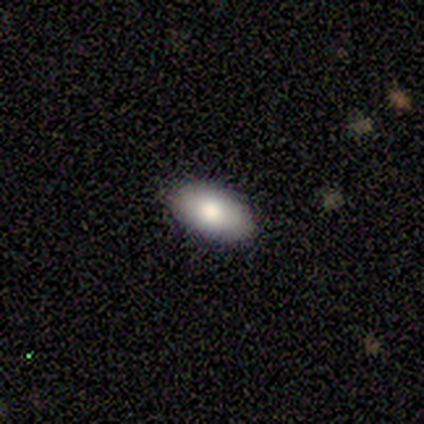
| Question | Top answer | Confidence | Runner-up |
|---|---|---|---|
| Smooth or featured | smooth | 86% | featured or disk (14%) |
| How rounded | in between | 100% | — |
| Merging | none | 100% | — |